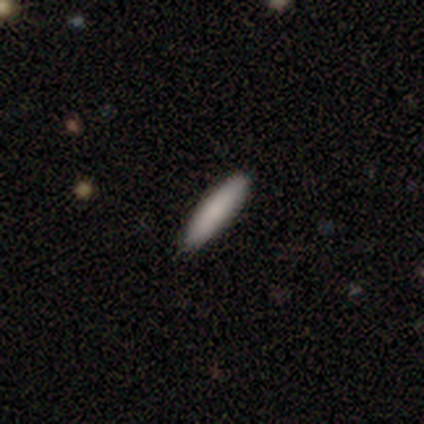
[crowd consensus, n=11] A smooth galaxy with no disk features (82%) that is cigar-shaped (100%). Merging: none (100%).